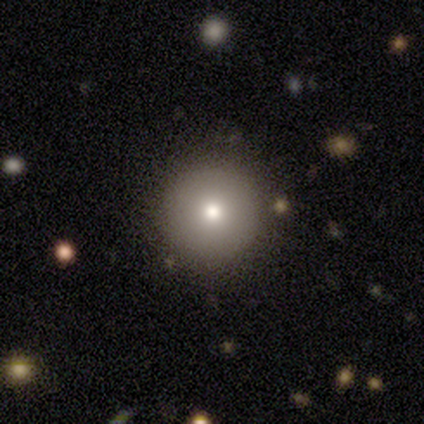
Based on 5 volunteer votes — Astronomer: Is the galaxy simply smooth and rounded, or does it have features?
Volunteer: smooth — 60% (runner-up: star or artifact, 40%).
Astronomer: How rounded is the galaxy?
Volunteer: round — 100%.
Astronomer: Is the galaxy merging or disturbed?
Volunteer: none — 100%.